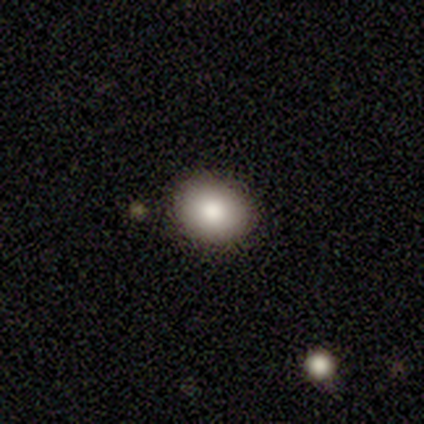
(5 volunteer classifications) A smooth galaxy with no disk features (100%) that is round (80%). Merging: none (100%).